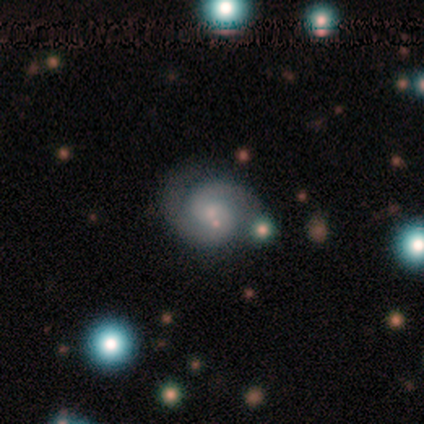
This is likely a featured or disk galaxy (75%). It is clearly not viewed edge-on (100%). Bar: clearly no (83%). Spiral arm pattern: clearly yes (100%). Spiral arm count: clearly 2 (83%). Spiral winding: likely medium (67%). Central bulge: likely small (67%). Merging: clearly none (83%).